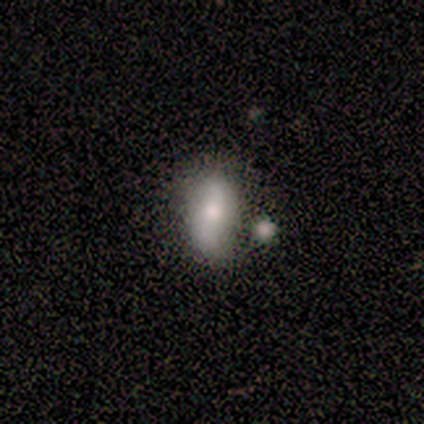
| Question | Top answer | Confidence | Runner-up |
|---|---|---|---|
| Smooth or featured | featured or disk | 56% | smooth (44%) |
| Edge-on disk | no | 60% | yes (40%) |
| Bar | no | 67% | weak (33%) |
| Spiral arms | yes | 67% | no (33%) |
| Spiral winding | loose | 100% | — |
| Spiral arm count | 2 | 50% | tied: can't tell (50%) |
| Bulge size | large | 67% | moderate (33%) |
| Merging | none | 44% | minor disturbance (33%) |